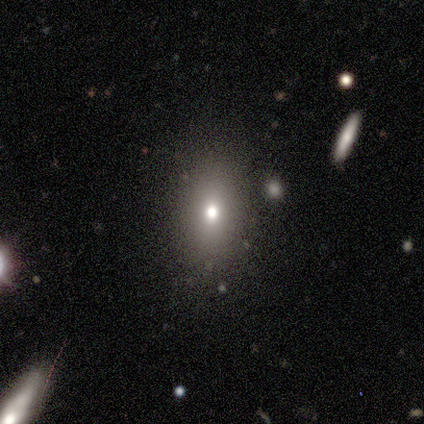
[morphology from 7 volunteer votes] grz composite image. It shows a smooth galaxy with no disk features (71%) that is in between round and cigar-shaped (80%). Merging: none (71%).